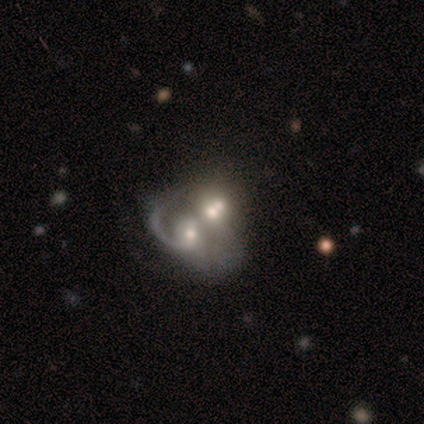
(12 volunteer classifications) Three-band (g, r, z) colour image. It shows a featured or disk galaxy (58%) with no bar (86%), 1 (75%) medium (75%) spiral arms (57%) and a moderate central bulge (57%). Merging: merger (92%).